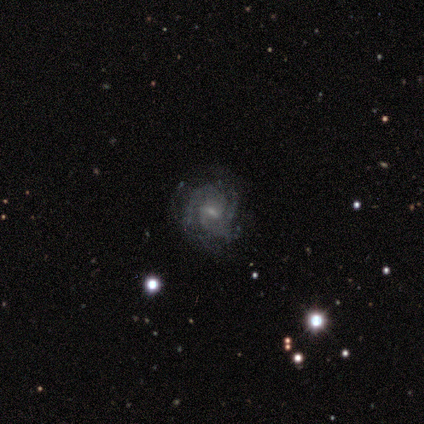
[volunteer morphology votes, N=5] Volunteers were most divided on "bar" (2-way tie): strong: 50%, weak: 50%, no: 0%. More confident: edge-on disk — no (100%); spiral arms — yes (100%); bulge size — moderate (100%); smooth or featured — featured or disk (80%); merging — none (75%); spiral winding — tight (50%); spiral arm count — 2 (50%).